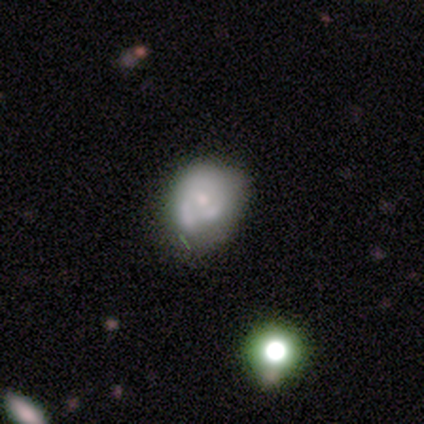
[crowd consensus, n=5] This appears to be a featured or disk galaxy (60%) with no bar (100%), no spiral arms (67%) and a small central bulge (100%). Merging: minor disturbance (60%).